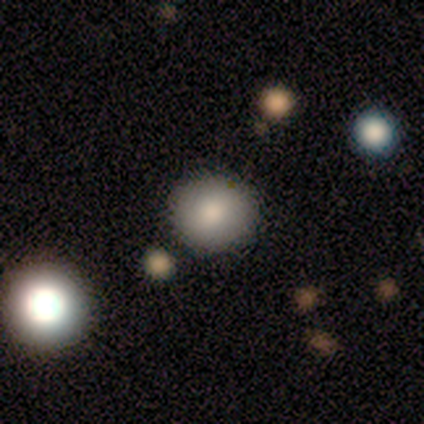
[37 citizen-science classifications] A smooth galaxy with no disk features (70%) that is round (96%). Merging: none (88%).